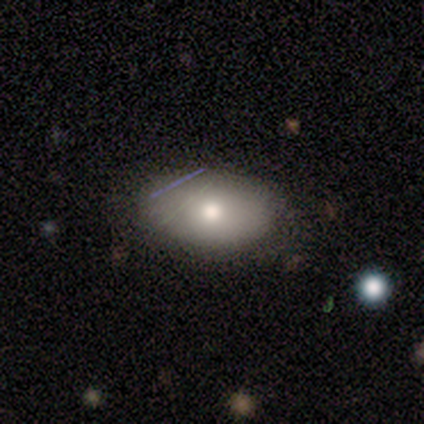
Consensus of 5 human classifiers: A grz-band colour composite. It shows a smooth galaxy with no disk features (100%) that is in between round and cigar-shaped (100%). Merging: none (80%).